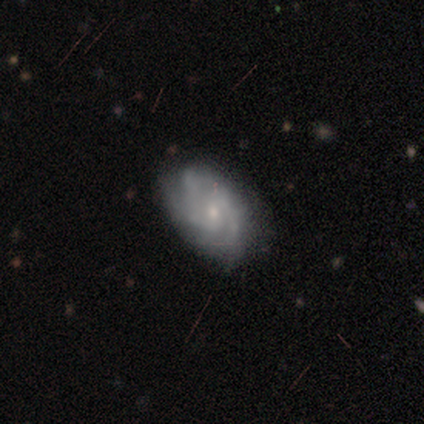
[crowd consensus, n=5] featured or disk 100%, smooth 0%, star or artifact 0%. Down the decision tree: edge-on disk — no (100%); bar — no (60%); spiral arms — yes (100%); spiral arm count — 2 (40%, tied with can't tell); spiral winding — tight (60%); bulge size — small (60%); merging — none (80%).